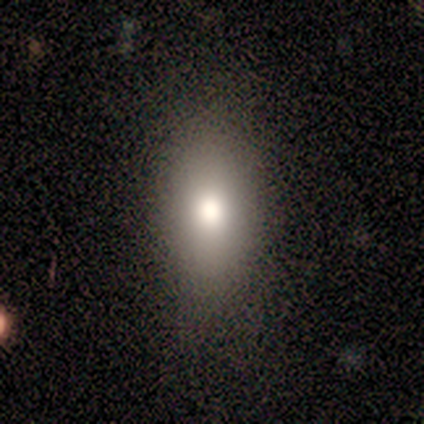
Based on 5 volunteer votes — smooth_or_featured: smooth (p=0.80) [alt: featured or disk p=0.20]
how_rounded: in between (p=1.00)
merging: none (p=0.80) [alt: minor disturbance p=0.20]